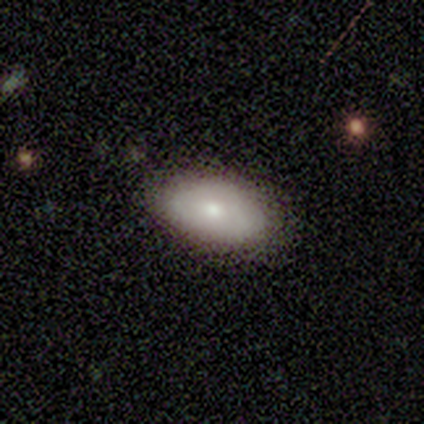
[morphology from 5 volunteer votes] Smooth or featured: smooth — 80% (featured or disk — 20%)
How rounded: in between — 100%
Merging: none — 80% (minor disturbance — 20%)